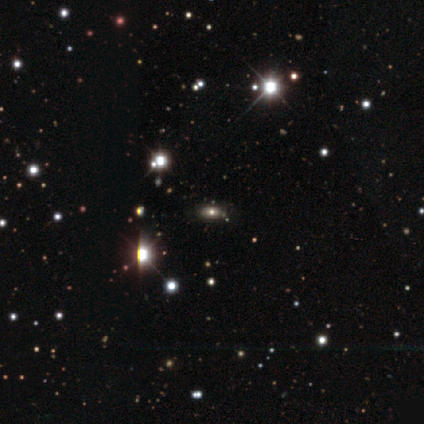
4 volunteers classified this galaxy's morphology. This is likely a smooth galaxy (75%). How rounded: clearly in between (100%). Merging: clearly none (100%).